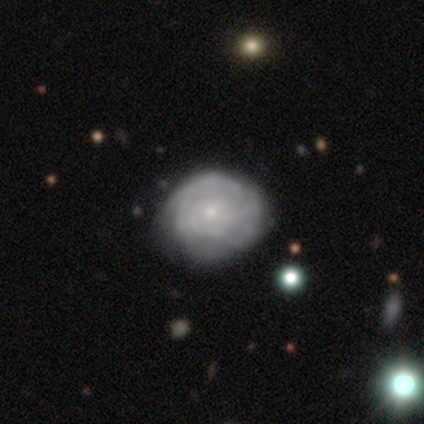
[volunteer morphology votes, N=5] A featured or disk galaxy (80%) with no bar (100%), tight (67%) spiral arms (75%) and a small central bulge (75%). Merging: none (80%).